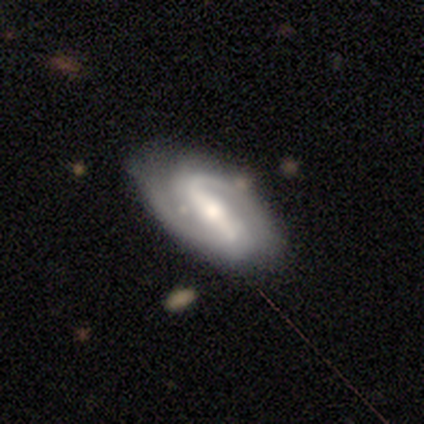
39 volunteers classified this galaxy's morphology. featured or disk 85%, smooth 13%, star or artifact 3%. Down the decision tree: edge-on disk — no (100%); bar — strong (61%); spiral arms — yes (100%); spiral arm count — 2 (82%); spiral winding — medium (48%); bulge size — moderate (58%); merging — none (76%).